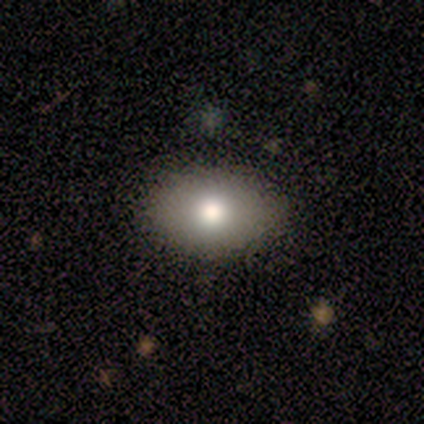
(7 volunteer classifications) Q: Smooth or featured?
A: smooth (100%)
Q: How rounded?
A: in between (100%)
Q: Merging?
A: none (86%); runner-up: minor disturbance (14%)